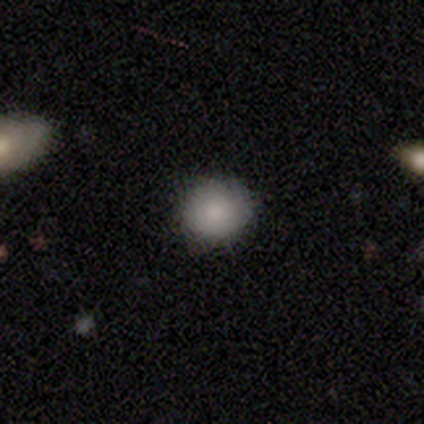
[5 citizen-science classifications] A smooth galaxy with no disk features (100%) that is round (100%).

Vote fractions:
- Smooth or featured? smooth: 100% / featured or disk: 0% / star or artifact: 0%
- How rounded? round: 100% / in between: 0% / cigar-shaped: 0%
- Merging? none: 80% / minor disturbance: 20% / major disturbance: 0% / merger: 0%